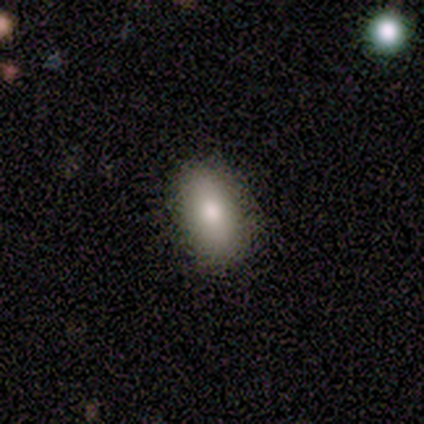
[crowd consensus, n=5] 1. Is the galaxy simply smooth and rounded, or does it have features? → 60% smooth, 40% featured or disk, 0% star or artifact.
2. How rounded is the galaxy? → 67% in between, 33% round, 0% cigar-shaped.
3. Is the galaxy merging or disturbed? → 80% none, 20% minor disturbance, 0% major disturbance, 0% merger.